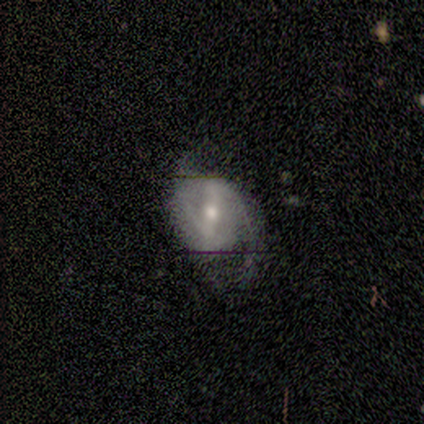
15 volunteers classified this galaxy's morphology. type=featured or disk (87%); edge-on=no (100%); bar=strong (77%); spiral arms=yes (92%); winding=medium (67%); arm count=2 (92%); bulge=moderate (85%); merging=none (60%).